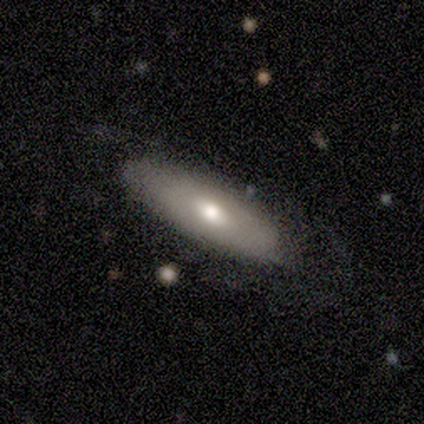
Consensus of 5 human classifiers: smooth_or_featured: smooth (p=0.60) [alt: featured or disk p=0.40]
how_rounded: in between (p=1.00)
merging: none (p=0.80) [alt: minor disturbance p=0.20]